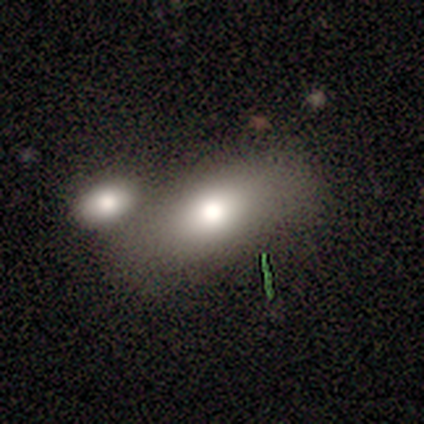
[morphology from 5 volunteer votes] Overall: smooth (80%). How rounded: in between (50%; round 25%). Merging: merger (60%; none 40%).